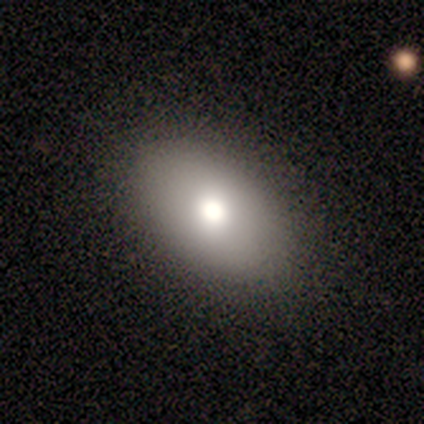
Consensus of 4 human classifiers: Smooth or featured? 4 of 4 (100%) said smooth. How rounded? 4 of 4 (100%) said in between. Merging? 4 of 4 (100%) said none.